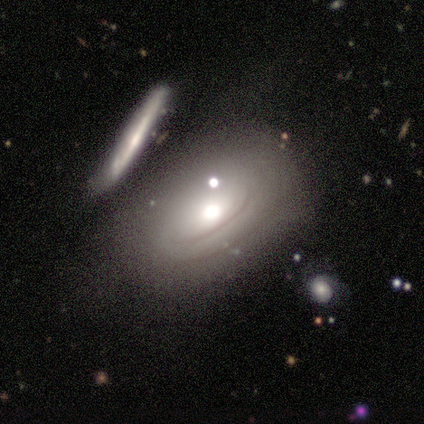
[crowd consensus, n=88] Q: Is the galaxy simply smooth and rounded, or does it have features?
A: featured or disk — 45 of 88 (51%).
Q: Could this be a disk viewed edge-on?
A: no — 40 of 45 (89%).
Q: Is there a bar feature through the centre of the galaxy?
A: no — 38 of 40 (95%).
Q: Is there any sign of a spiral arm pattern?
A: no — 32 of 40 (80%).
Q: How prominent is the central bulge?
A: moderate — 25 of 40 (62%).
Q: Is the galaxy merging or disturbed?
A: none — 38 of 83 (46%).